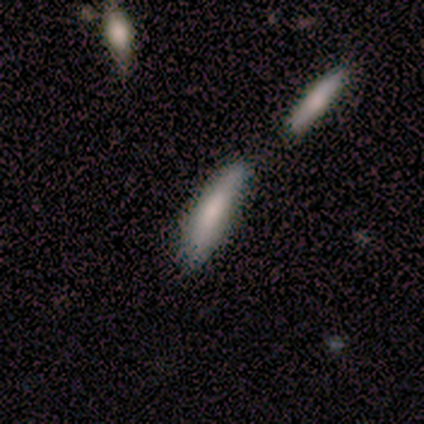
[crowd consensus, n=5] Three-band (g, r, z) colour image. It shows a smooth galaxy with no disk features (80%) that is cigar-shaped (100%). Merging: none (60%).